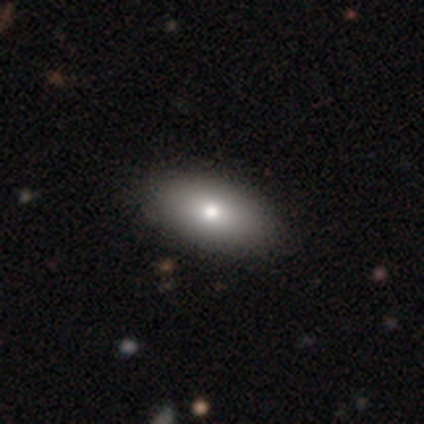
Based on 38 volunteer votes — smooth_or_featured: smooth (p=0.82) [alt: featured or disk p=0.13]
how_rounded: in between (p=1.00)
merging: none (p=0.78) [alt: minor disturbance p=0.06]